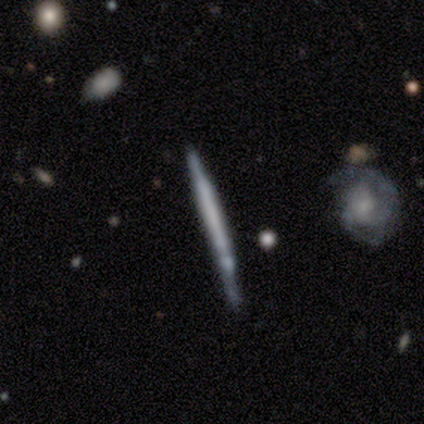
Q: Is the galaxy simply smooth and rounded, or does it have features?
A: featured or disk — 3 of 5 (60%).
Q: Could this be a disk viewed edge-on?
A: yes — 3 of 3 (100%).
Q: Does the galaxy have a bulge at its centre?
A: none — 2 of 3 (67%).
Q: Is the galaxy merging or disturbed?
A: none — 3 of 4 (75%).